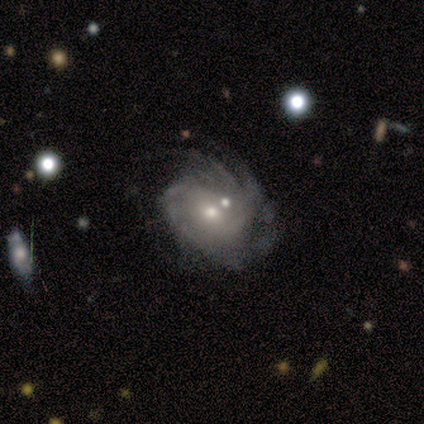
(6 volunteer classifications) featured or disk 100%, smooth 0%, star or artifact 0%. Down the decision tree: edge-on disk — no (100%); bar — weak (50%, tied with no); spiral arms — yes (100%); spiral arm count — can't tell (50%); spiral winding — tight (33%, tied with medium and loose); bulge size — small (67%); merging — none (33%, tied with major disturbance).